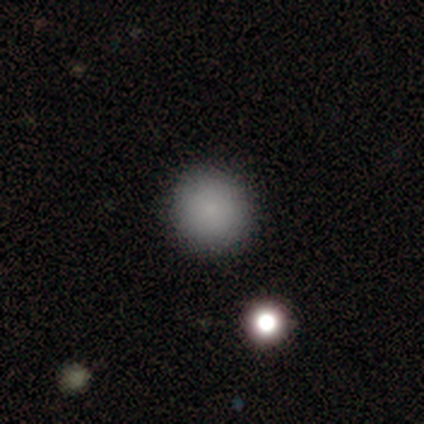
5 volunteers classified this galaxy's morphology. Smooth or featured?
  - smooth: 100% *
  - featured or disk: 0%
  - star or artifact: 0%
How rounded?
  - round: 100% *
  - in between: 0%
  - cigar-shaped: 0%
Merging?
  - none: 80% *
  - minor disturbance: 20%
  - major disturbance: 0%
  - merger: 0%